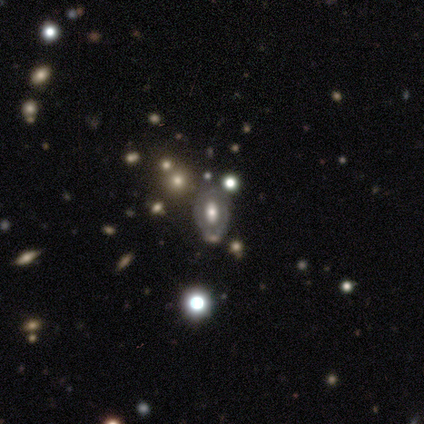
A featured or disk galaxy (60%) with no bar (100%), no spiral arms (100%) and a moderate central bulge (100%). Merging: none (100%).